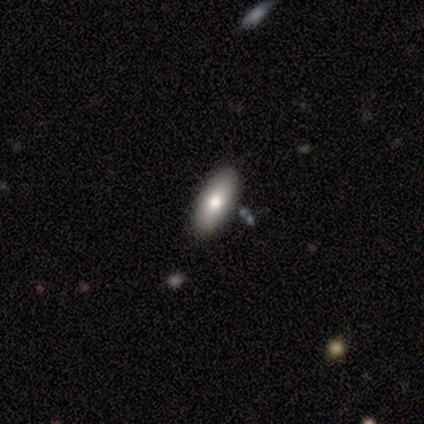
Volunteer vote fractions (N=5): A smooth galaxy with no disk features (80%) that is in between round and cigar-shaped (75%). Merging: none (80%).